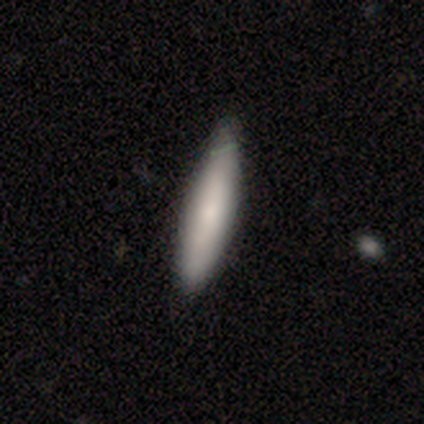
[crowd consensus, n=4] A smooth galaxy with no disk features (100%) that is cigar-shaped (75%).

Vote fractions:
- Smooth or featured? smooth: 100% / featured or disk: 0% / star or artifact: 0%
- How rounded? cigar-shaped: 75% / in between: 25% / round: 0%
- Merging? none: 100% / minor disturbance: 0% / major disturbance: 0% / merger: 0%